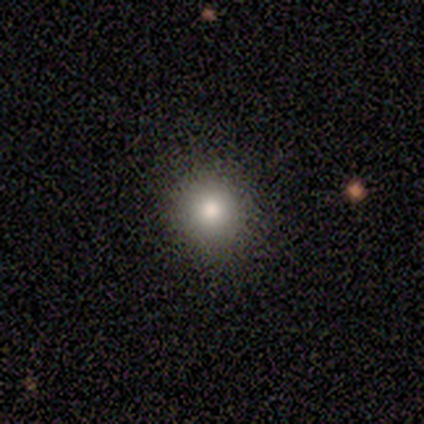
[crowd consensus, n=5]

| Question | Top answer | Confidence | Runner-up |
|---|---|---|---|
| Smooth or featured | smooth | 80% | star or artifact (20%) |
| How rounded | round | 100% | — |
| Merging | none | 100% | — |